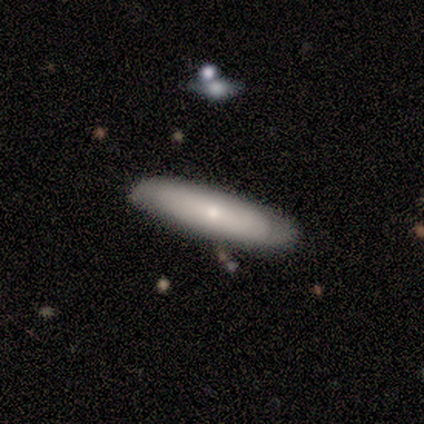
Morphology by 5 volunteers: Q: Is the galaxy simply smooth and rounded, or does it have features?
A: smooth — 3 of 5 (60%).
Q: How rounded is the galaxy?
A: cigar-shaped — 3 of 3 (100%).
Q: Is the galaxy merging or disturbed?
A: minor disturbance — 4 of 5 (80%).